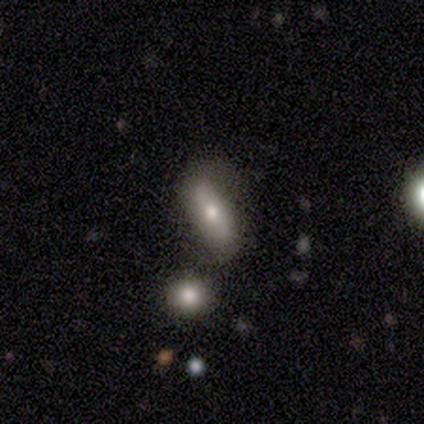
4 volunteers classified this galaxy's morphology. This appears to be a featured or disk galaxy (75%) with a weak bar (50%, tied with no), no spiral arms (100%) and a moderate central bulge (50%, tied with small). Merging: major disturbance (67%).